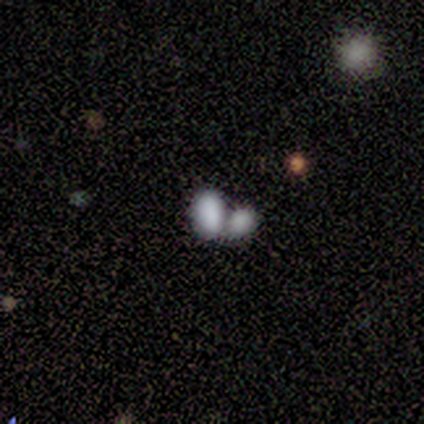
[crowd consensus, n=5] This is likely a smooth galaxy (60%). How rounded: clearly in between (100%). Merging: clearly merger (100%).